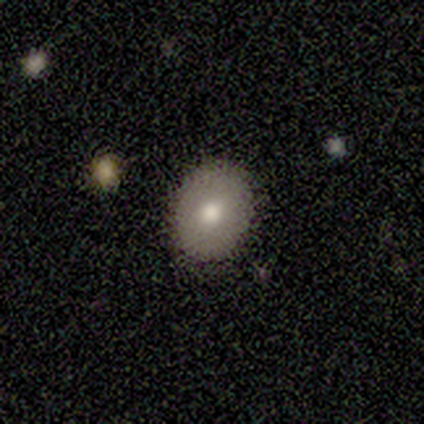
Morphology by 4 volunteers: type=featured or disk (50%); edge-on=no (100%); bar=no (100%); spiral arms=no (100%); bulge=moderate (100%); merging=none (100%).